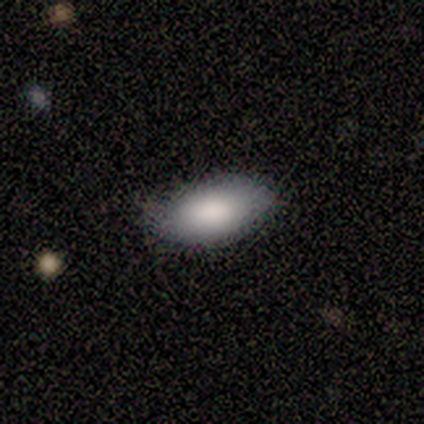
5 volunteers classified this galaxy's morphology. A smooth galaxy with no disk features (100%) that is in between round and cigar-shaped (100%).

Vote fractions:
- Smooth or featured? smooth: 100% / featured or disk: 0% / star or artifact: 0%
- How rounded? in between: 100% / round: 0% / cigar-shaped: 0%
- Merging? none: 80% / major disturbance: 20% / minor disturbance: 0% / merger: 0%